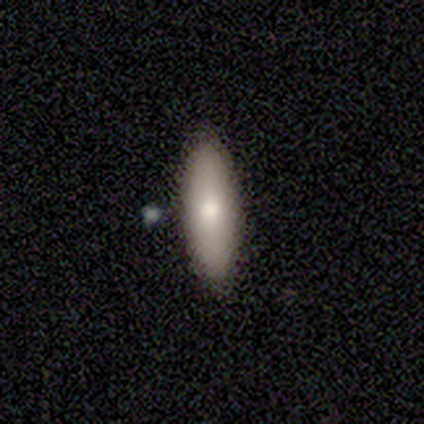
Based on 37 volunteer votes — smooth 73%, featured or disk 16%, star or artifact 11%. Down the decision tree: how rounded — in between (59%); merging — none (100%).